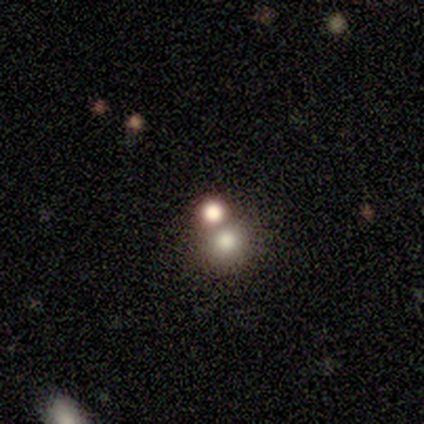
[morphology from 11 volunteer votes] Overall: smooth (55%; star or artifact 45%). How rounded: round (83%). Merging: merger (67%; none 33%).